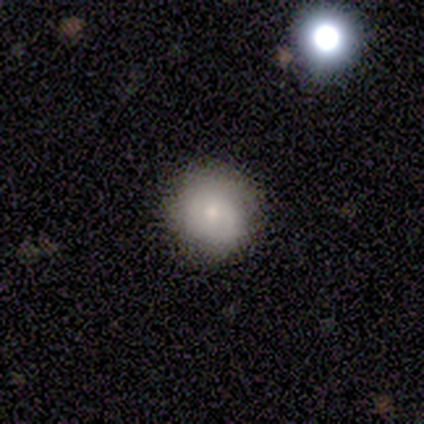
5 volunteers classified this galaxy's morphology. type=featured or disk (60%); edge-on=no (100%); bar=no (100%); spiral arms=no (67%); bulge=small (67%); merging=none (100%).